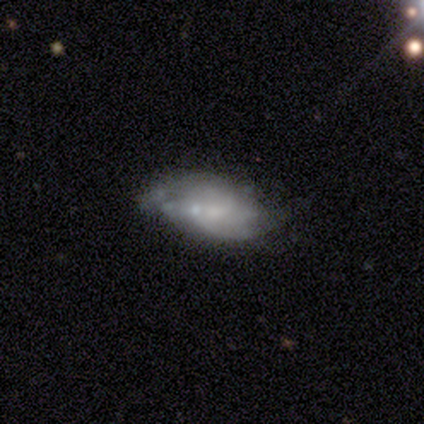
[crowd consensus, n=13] smooth-or-featured: featured or disk: 54% | smooth: 38% | star or artifact: 8%
  disk-edge-on: no: 100% | yes: 0%
    bar: no: 57% | weak: 29% | strong: 14%
    has-spiral-arms: yes: 57% | no: 43%
      spiral-winding: medium: 50% | tight: 25% | loose: 25%
      spiral-arm-count: 2: 50% (tied) | can't tell: 50% (tied) | 1: 0% | 3: 0% | 4: 0% | more than 4: 0%
    bulge-size: moderate: 43% (tied) | none: 43% (tied) | small: 14% | dominant: 0% | large: 0%
  merging: minor disturbance: 50% | none: 25% | major disturbance: 17% | merger: 8%